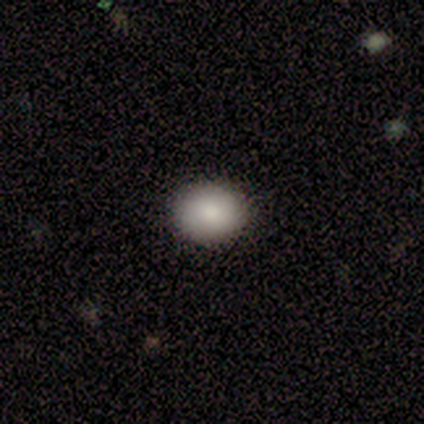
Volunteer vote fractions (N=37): Q: Smooth or featured?
A: smooth (89%); runner-up: star or artifact (8%)
Q: How rounded?
A: round (64%); runner-up: in between (36%)
Q: Merging?
A: none (97%); runner-up: minor disturbance (3%)